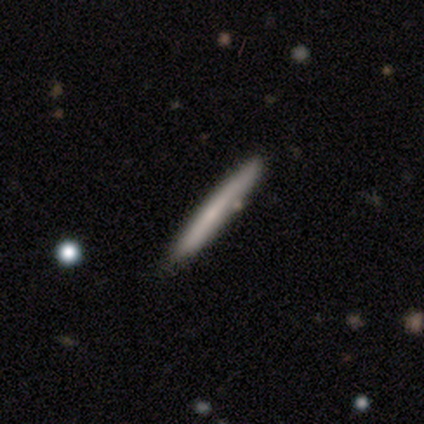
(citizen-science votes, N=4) Smooth or featured? 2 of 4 (50%, tied with featured or disk) said smooth. How rounded? 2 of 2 (100%) said cigar-shaped. Merging? 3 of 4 (75%) said none.